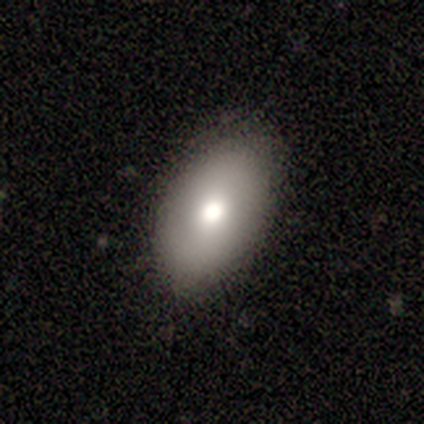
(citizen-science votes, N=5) Smooth or featured: smooth — 80% (featured or disk — 20%)
How rounded: in between — 100%
Merging: none — 80% (minor disturbance — 20%)